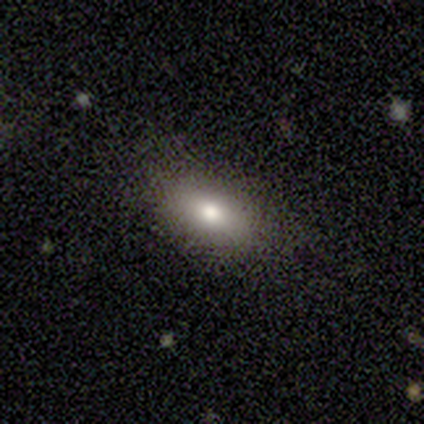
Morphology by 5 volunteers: smooth_or_featured: smooth (p=0.80) [alt: star or artifact p=0.20]
how_rounded: in between (p=1.00)
merging: none (p=1.00)